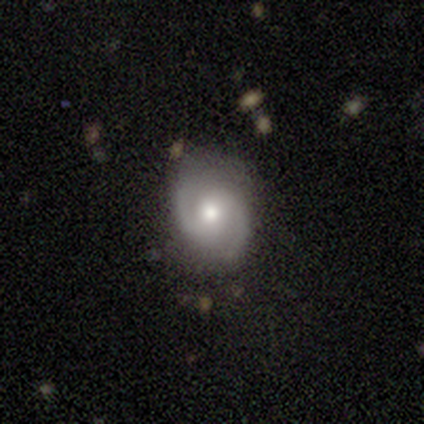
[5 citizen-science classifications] Q: Smooth or featured?
A: featured or disk (80%); runner-up: smooth (20%)
Q: Edge-on disk?
A: no (100%)
Q: Bar?
A: no (75%); runner-up: weak (25%)
Q: Spiral arms?
A: yes (100%)
Q: Spiral winding?
A: medium (75%); runner-up: loose (25%)
Q: Spiral arm count?
A: 2 (100%)
Q: Bulge size?
A: moderate (50%); tied with: small (50%)
Q: Merging?
A: none (100%)